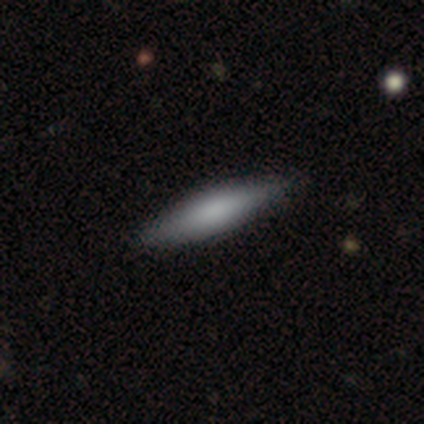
Smooth or featured?
  - smooth: 50% * (tied)
  - featured or disk: 50% * (tied)
  - star or artifact: 0%
How rounded?
  - cigar-shaped: 100% *
  - round: 0%
  - in between: 0%
Merging?
  - none: 75% *
  - major disturbance: 25%
  - minor disturbance: 0%
  - merger: 0%